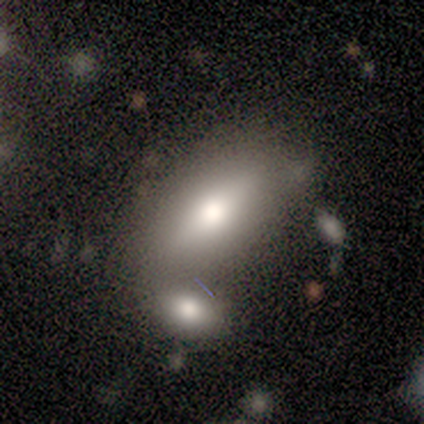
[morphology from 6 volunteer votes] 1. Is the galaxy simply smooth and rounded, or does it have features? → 83% smooth, 17% featured or disk, 0% star or artifact.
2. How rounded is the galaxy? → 100% in between, 0% round, 0% cigar-shaped.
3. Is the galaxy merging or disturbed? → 50% none (tied), 50% merger (tied), 0% minor disturbance, 0% major disturbance.